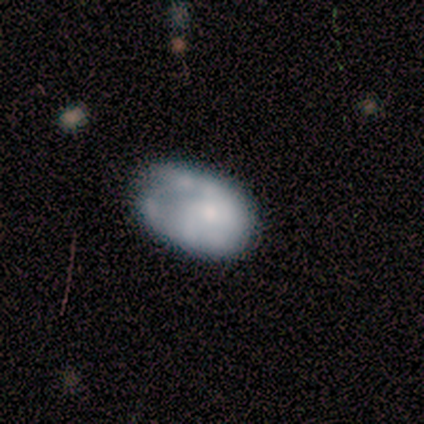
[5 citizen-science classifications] This appears to be a smooth galaxy with no disk features (80%) that is in between round and cigar-shaped (100%). Merging: none (40%, tied with minor disturbance).